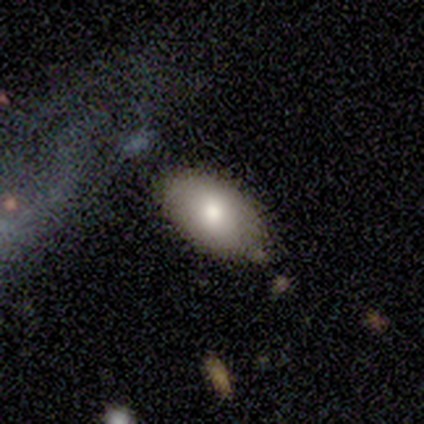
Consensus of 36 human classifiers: Q: Smooth or featured?
A: smooth (89%); runner-up: star or artifact (8%)
Q: How rounded?
A: in between (100%)
Q: Merging?
A: none (73%); runner-up: minor disturbance (21%)